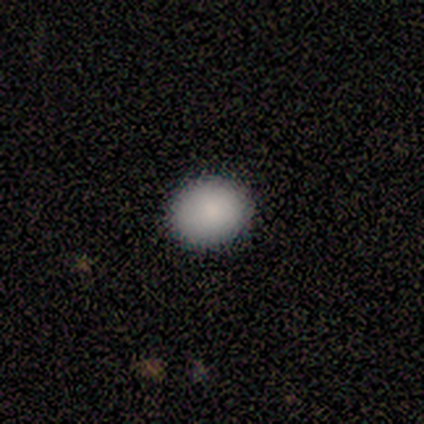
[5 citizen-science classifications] Overall: smooth (80%). How rounded: in between (75%). Merging: none (60%; minor disturbance 40%).